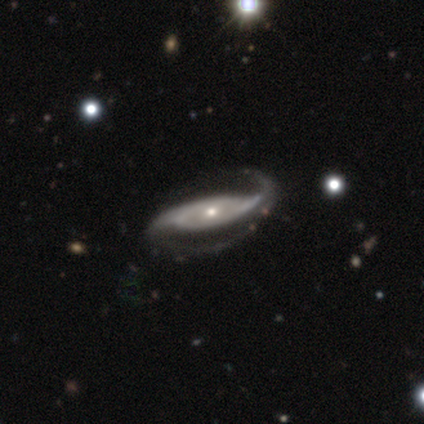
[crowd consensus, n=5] Q: Smooth or featured?
A: featured or disk (60%); runner-up: smooth (20%)
Q: Edge-on disk?
A: no (67%); runner-up: yes (33%)
Q: Bar?
A: weak (50%); tied with: no (50%)
Q: Spiral arms?
A: yes (100%)
Q: Spiral winding?
A: medium (100%)
Q: Spiral arm count?
A: 2 (100%)
Q: Bulge size?
A: small (100%)
Q: Merging?
A: none (50%); runner-up: major disturbance (25%)